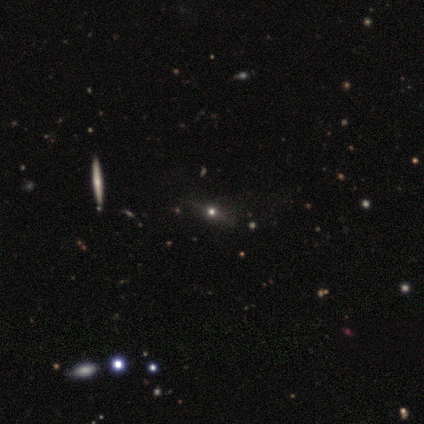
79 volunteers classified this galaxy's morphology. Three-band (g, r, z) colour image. It shows a featured or disk galaxy (49%) viewed edge-on (85%) with a rounded central bulge (94%). Merging: none (44%).